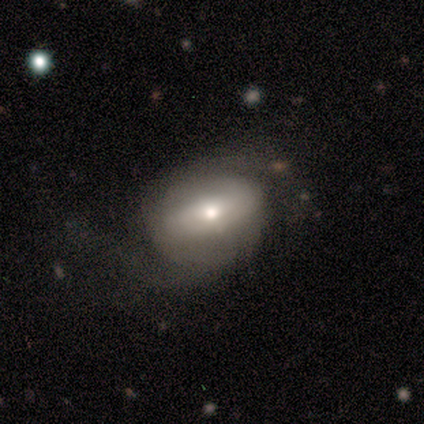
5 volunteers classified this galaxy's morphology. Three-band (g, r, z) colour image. It shows a featured or disk galaxy (100%) with no bar (100%), 2 (100%) tight (50%, tied with medium) spiral arms (50%, tied with no) and a small central bulge (75%). Merging: none (60%).